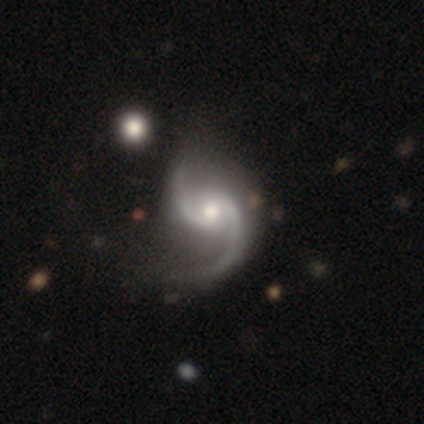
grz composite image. It shows a featured or disk galaxy (92%) with no bar (52%), 2 (97%) loose (64%) spiral arms (100%) and a moderate central bulge (61%). Merging: none (38%).